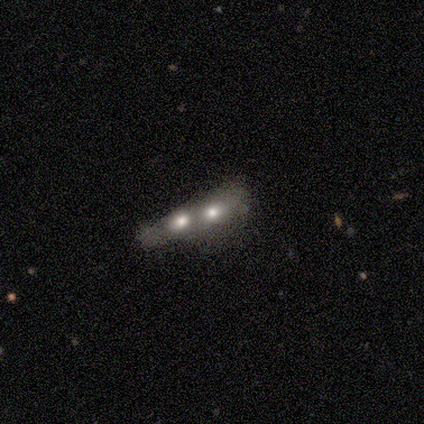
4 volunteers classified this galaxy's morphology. This is possibly a smooth galaxy (50%). How rounded: clearly cigar-shaped (100%). Merging: likely merger (67%).